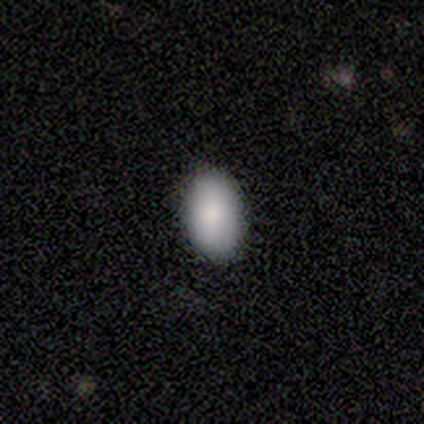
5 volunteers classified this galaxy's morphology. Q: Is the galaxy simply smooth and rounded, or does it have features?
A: smooth — 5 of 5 (100%).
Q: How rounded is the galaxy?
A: in between — 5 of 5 (100%).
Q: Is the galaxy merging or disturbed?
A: none — 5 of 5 (100%).